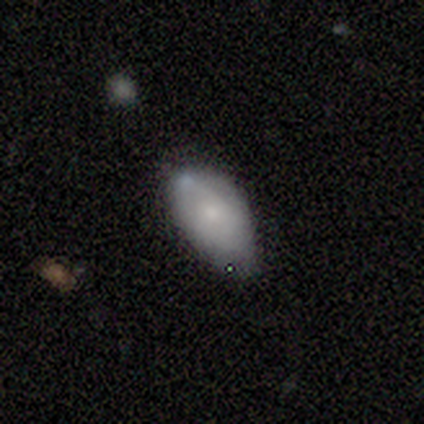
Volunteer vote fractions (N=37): Smooth or featured? 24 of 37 (65%) said smooth. How rounded? 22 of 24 (92%) said in between. Merging? 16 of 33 (48%) said none.